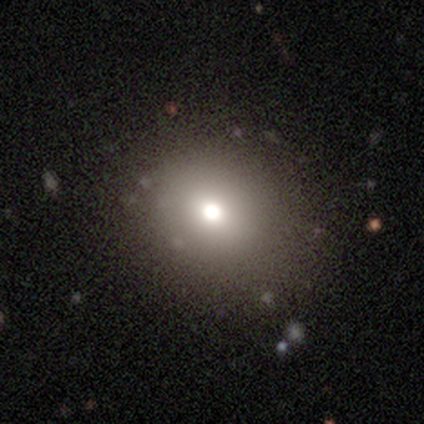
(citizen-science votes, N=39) smooth-or-featured: smooth: 77% | star or artifact: 13% | featured or disk: 10%
  how-rounded: round: 80% | in between: 20% | cigar-shaped: 0%
  merging: none: 71% | minor disturbance: 15% | major disturbance: 12% | merger: 3%